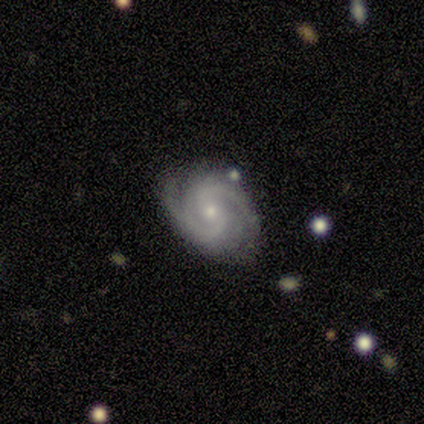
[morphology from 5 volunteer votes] featured or disk 60%, smooth 20%, star or artifact 20%. Down the decision tree: edge-on disk — no (100%); bar — strong (33%, tied with weak and no); spiral arms — yes (100%); spiral arm count — 2 (100%); spiral winding — medium (67%); bulge size — moderate (67%); merging — none (75%).